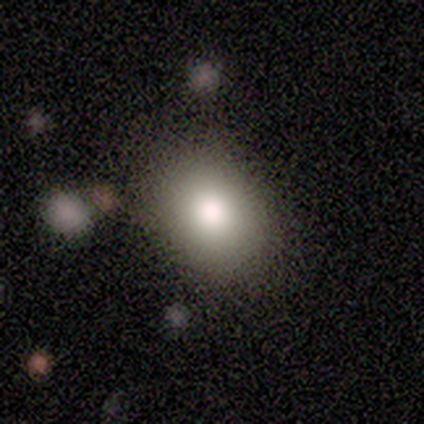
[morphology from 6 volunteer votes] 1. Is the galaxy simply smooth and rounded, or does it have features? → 67% smooth, 33% featured or disk, 0% star or artifact.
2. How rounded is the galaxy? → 100% round, 0% in between, 0% cigar-shaped.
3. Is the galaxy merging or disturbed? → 67% none, 17% minor disturbance, 17% major disturbance, 0% merger.